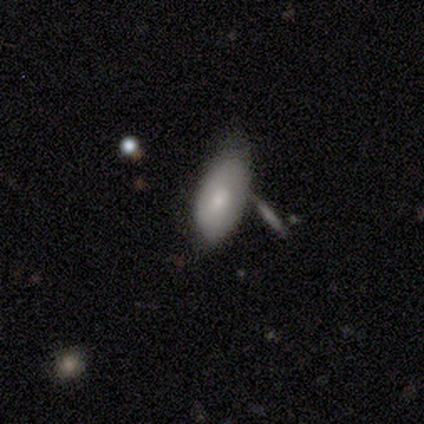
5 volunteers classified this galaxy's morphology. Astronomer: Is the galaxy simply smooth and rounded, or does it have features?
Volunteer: smooth — 80%.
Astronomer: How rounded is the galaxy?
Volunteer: in between — 100%.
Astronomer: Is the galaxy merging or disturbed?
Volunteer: none — 60%.